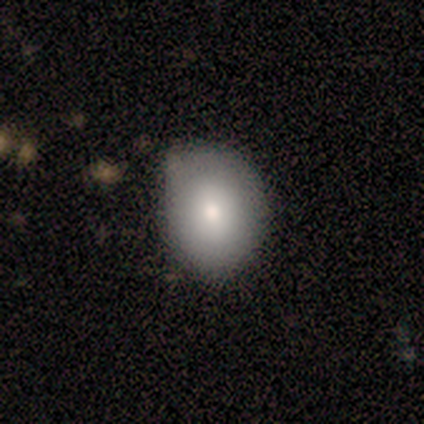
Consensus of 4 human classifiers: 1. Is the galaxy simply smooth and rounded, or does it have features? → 100% smooth, 0% featured or disk, 0% star or artifact.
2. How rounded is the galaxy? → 75% in between, 25% round, 0% cigar-shaped.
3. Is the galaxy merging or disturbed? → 50% none (tied), 50% minor disturbance (tied), 0% major disturbance, 0% merger.